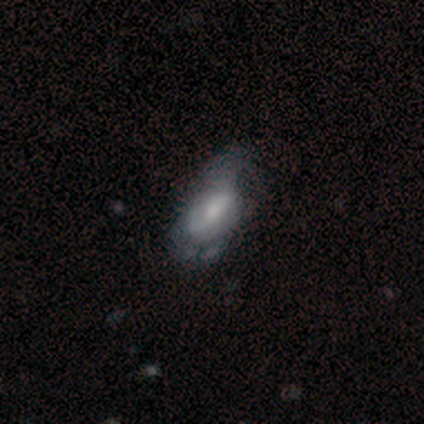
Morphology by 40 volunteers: This is possibly a featured or disk galaxy (50%). It is clearly not viewed edge-on (95%). Bar: possibly weak (47%). Spiral arm pattern: clearly yes (84%). Spiral arm count: possibly can't tell (56%). Spiral winding: marginally tight (44%). Central bulge: marginally small (32%). Merging: marginally minor disturbance (42%).